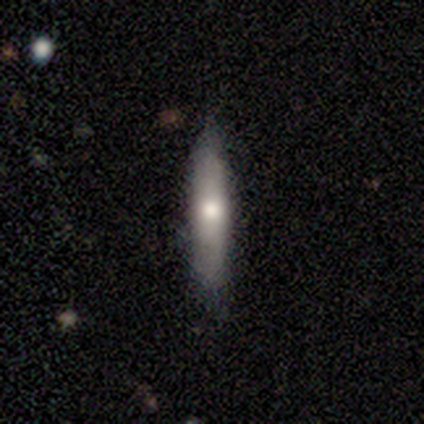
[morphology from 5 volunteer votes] Smooth or featured? 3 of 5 (60%) said featured or disk. Edge-on disk? 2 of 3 (67%) said yes. Edge-on bulge? 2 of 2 (100%) said rounded. Merging? 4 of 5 (80%) said none.